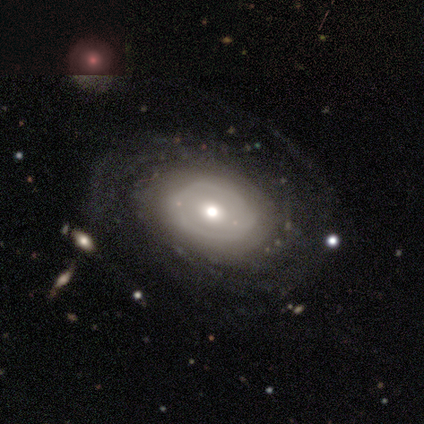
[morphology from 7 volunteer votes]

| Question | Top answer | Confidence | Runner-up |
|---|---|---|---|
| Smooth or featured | featured or disk | 57% | star or artifact (29%) |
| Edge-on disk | no | 100% | — |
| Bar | no | 100% | — |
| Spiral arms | yes | 50% | tied: no (50%) |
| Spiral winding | medium | 100% | — |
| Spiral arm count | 2 | 50% | tied: can't tell (50%) |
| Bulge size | moderate | 100% | — |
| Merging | none | 100% | — |